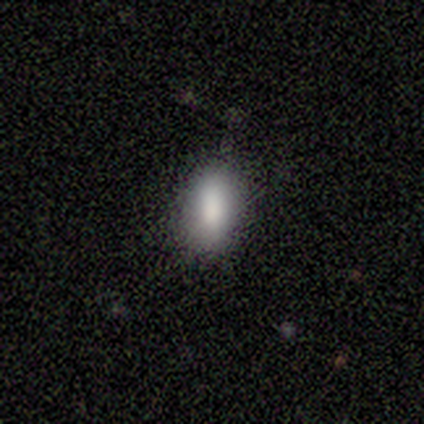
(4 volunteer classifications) This appears to be a smooth galaxy with no disk features (100%) that is in between round and cigar-shaped (100%). Merging: none (75%).